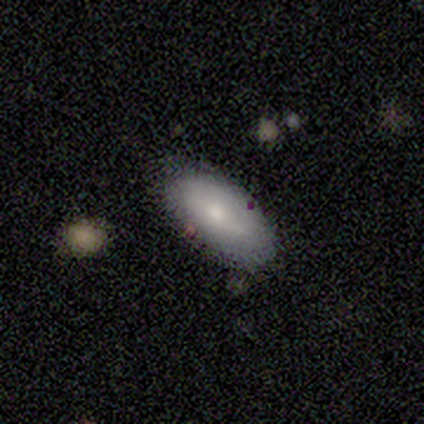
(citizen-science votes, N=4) This is possibly a smooth galaxy (50%, tied with featured or disk). How rounded: clearly in between (100%). Merging: clearly none (100%).